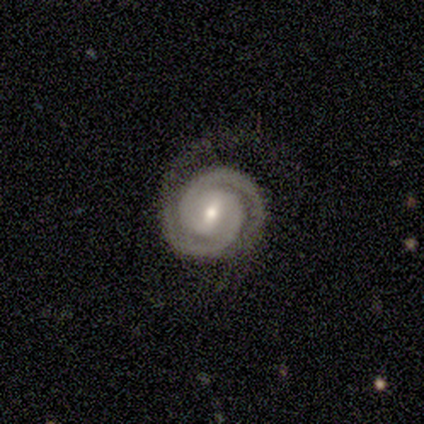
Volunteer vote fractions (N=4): Volunteers were most divided on "spiral winding": tight: 67%, loose: 33%, medium: 0%. More confident: edge-on disk — no (100%); bar — weak (100%); spiral arms — yes (100%); spiral arm count — 2 (100%); smooth or featured — featured or disk (75%); bulge size — small (67%); merging — none (67%).